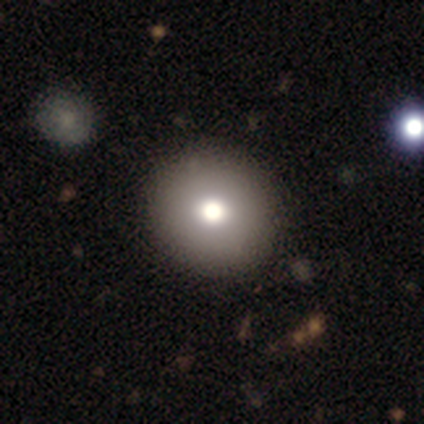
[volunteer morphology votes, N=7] Overall: smooth (57%; star or artifact 29%). How rounded: round (100%). Merging: none (100%).